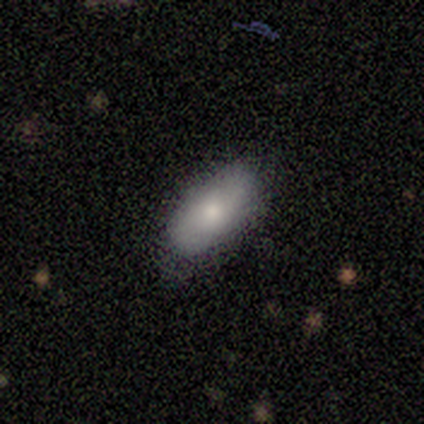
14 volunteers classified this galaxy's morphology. smooth 64%, featured or disk 29%, star or artifact 7%. Down the decision tree: how rounded — in between (100%); merging — none (92%).